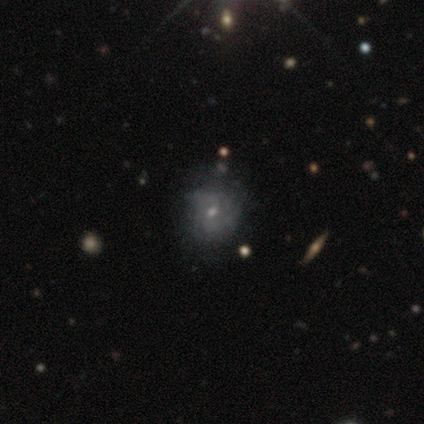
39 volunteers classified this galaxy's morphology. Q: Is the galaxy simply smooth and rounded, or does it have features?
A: featured or disk — 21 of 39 (54%).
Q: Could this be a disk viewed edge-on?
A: no — 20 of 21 (95%).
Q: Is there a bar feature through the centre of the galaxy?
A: no — 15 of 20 (75%).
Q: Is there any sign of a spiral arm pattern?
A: yes — 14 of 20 (70%).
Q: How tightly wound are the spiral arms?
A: tight — 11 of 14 (79%).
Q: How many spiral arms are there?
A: can't tell — 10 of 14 (71%).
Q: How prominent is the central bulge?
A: small — 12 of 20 (60%).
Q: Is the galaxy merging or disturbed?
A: none — 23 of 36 (64%).